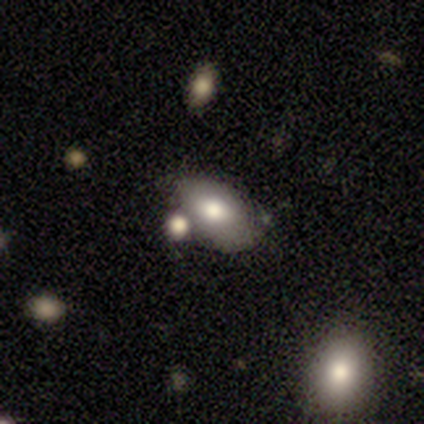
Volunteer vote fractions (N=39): Overall: smooth (77%). How rounded: in between (83%). Merging: none (53%; merger 25%).